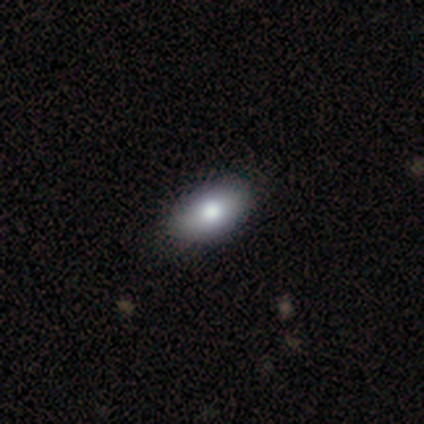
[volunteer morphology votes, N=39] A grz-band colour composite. It shows a smooth galaxy with no disk features (87%) that is in between round and cigar-shaped (91%). Merging: none (69%).